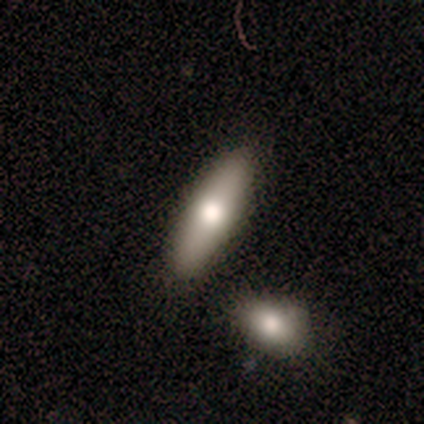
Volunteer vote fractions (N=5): Smooth or featured: featured or disk — 80% (smooth — 20%)
Edge-on disk: yes — 75% (no — 25%)
Edge-on bulge: rounded — 100%
Merging: none — 80% (merger — 20%)